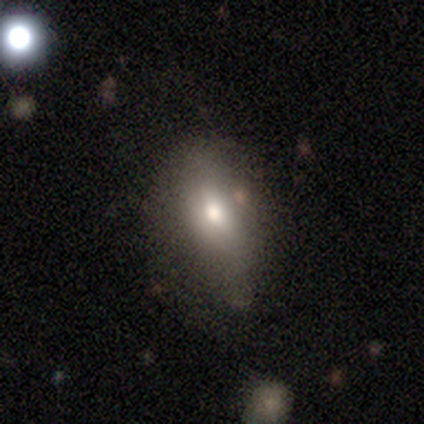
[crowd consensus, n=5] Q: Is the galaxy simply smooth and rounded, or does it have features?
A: smooth — 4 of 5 (80%).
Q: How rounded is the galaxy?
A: in between — 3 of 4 (75%).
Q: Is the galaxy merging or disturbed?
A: minor disturbance — 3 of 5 (60%).